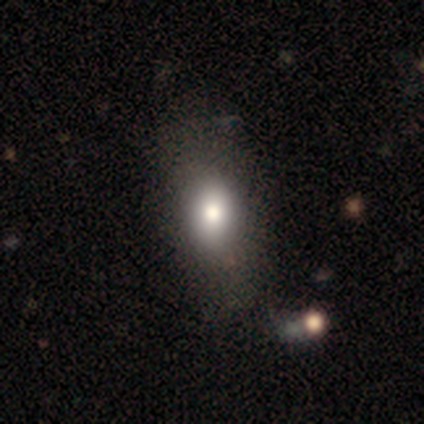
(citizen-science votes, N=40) smooth_or_featured: smooth (p=0.68) [alt: star or artifact p=0.23]
how_rounded: in between (p=0.78) [alt: round p=0.19]
merging: none (p=0.45) [alt: minor disturbance p=0.10]